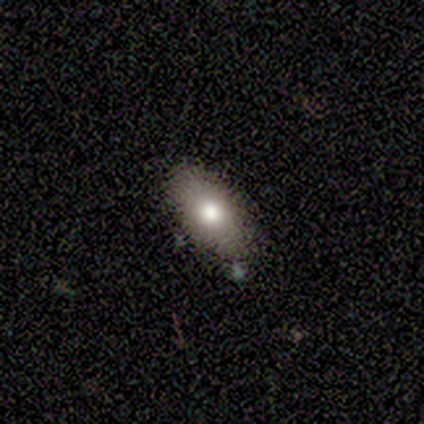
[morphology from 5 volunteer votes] Q: Smooth or featured?
A: smooth (100%)
Q: How rounded?
A: in between (100%)
Q: Merging?
A: none (100%)